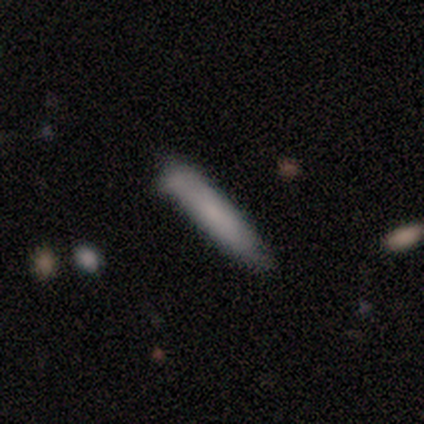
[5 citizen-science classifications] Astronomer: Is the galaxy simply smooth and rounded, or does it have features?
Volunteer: smooth — 80%.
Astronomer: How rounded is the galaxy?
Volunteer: cigar-shaped — 75%.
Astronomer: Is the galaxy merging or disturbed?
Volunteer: none — 100%.